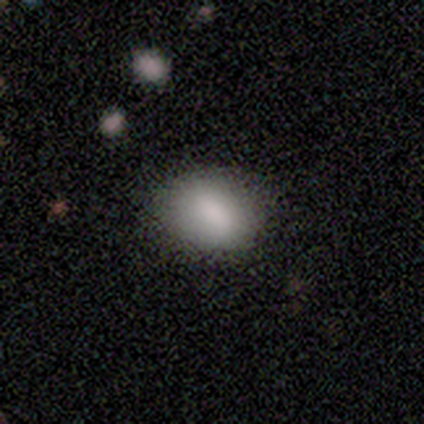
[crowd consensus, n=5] Overall: smooth (80%). How rounded: in between (75%). Merging: none (100%).